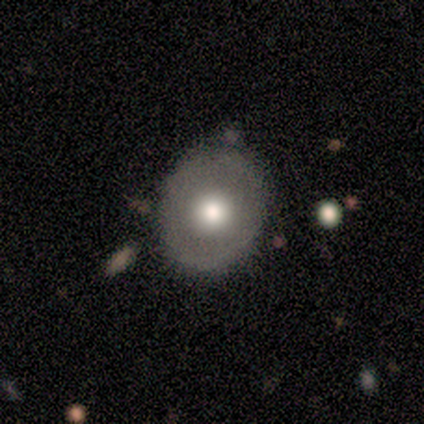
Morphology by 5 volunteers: Smooth or featured?
  - featured or disk: 60% *
  - smooth: 40%
  - star or artifact: 0%
Edge-on disk?
  - no: 67% *
  - yes: 33%
Bar?
  - no: 100% *
  - strong: 0%
  - weak: 0%
Spiral arms?
  - no: 100% *
  - yes: 0%
Bulge size?
  - large: 50% * (tied)
  - moderate: 50% * (tied)
  - dominant: 0%
  - small: 0%
  - none: 0%
Merging?
  - none: 100% *
  - minor disturbance: 0%
  - major disturbance: 0%
  - merger: 0%